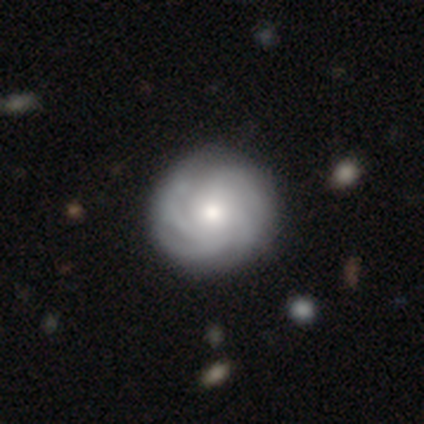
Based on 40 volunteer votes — Morphology: type=featured or disk (85%); edge-on=no (94%); bar=no (78%); spiral arms=yes (94%); winding=tight (60%); arm count=4 (60%); bulge=moderate (62%); merging=none (60%).